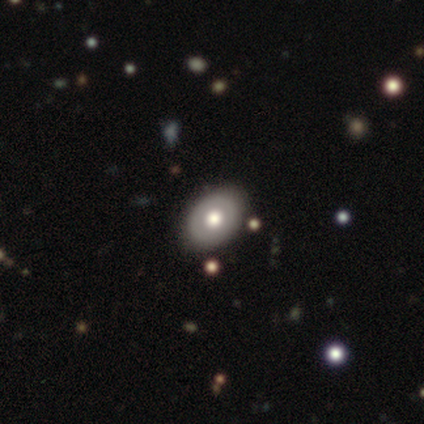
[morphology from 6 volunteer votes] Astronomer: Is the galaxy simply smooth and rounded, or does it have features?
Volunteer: smooth — 50%, tied with featured or disk at 50%.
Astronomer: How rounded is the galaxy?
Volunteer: in between — 100%.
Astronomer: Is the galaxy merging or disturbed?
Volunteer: none — 100%.